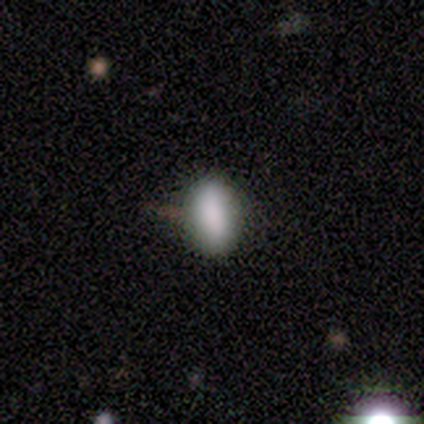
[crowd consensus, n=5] A smooth galaxy with no disk features (80%) that is in between round and cigar-shaped (100%).

Vote fractions:
- Smooth or featured? smooth: 80% / featured or disk: 20% / star or artifact: 0%
- How rounded? in between: 100% / round: 0% / cigar-shaped: 0%
- Merging? none: 80% / merger: 20% / minor disturbance: 0% / major disturbance: 0%